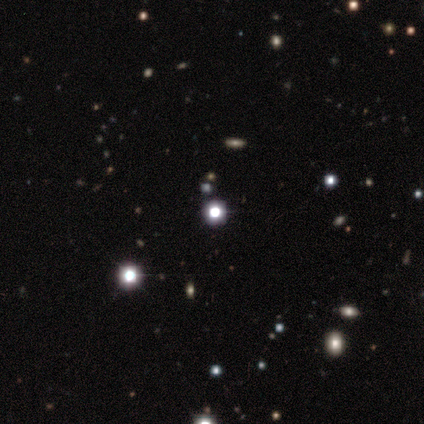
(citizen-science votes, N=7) This appears to be a star or artifact, not a galaxy (71%).